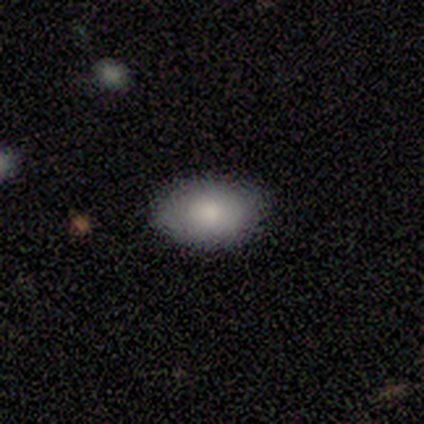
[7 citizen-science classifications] A smooth galaxy with no disk features (100%) that is in between round and cigar-shaped (100%).

Vote fractions:
- Smooth or featured? smooth: 100% / featured or disk: 0% / star or artifact: 0%
- How rounded? in between: 100% / round: 0% / cigar-shaped: 0%
- Merging? none: 86% / minor disturbance: 14% / major disturbance: 0% / merger: 0%